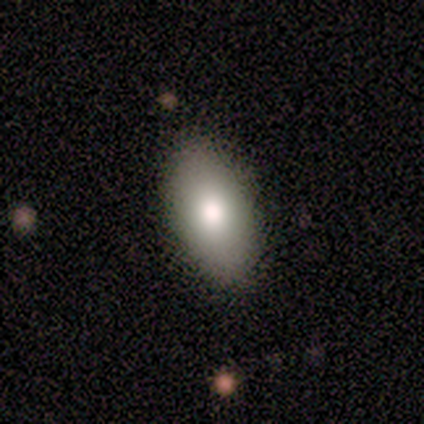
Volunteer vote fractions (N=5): A smooth galaxy with no disk features (80%) that is in between round and cigar-shaped (100%). Merging: none (80%).